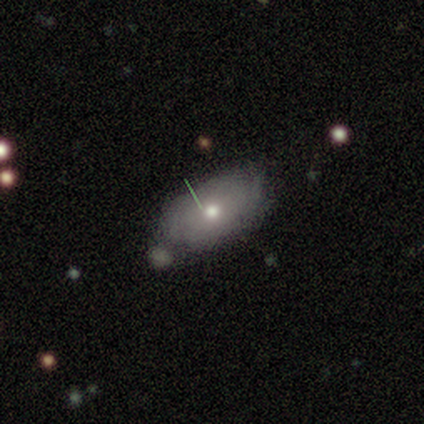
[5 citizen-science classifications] Smooth or featured? 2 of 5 (40%, tied with featured or disk) said smooth. How rounded? 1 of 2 (50%, tied with in between) said round. Merging? 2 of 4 (50%) said none.